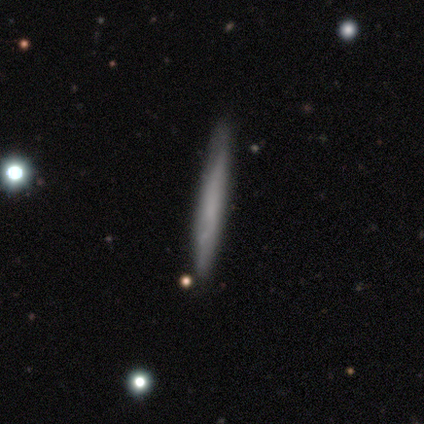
Smooth or featured: smooth — 62% (featured or disk — 34%)
How rounded: cigar-shaped — 100%
Merging: none — 89% (minor disturbance — 6%)